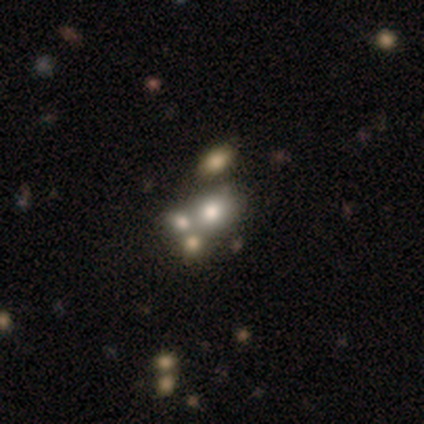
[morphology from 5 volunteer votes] Q: Smooth or featured?
A: featured or disk (40%); tied with: star or artifact (40%)
Q: Edge-on disk?
A: no (100%)
Q: Bar?
A: no (100%)
Q: Spiral arms?
A: no (100%)
Q: Bulge size?
A: dominant (50%); tied with: moderate (50%)
Q: Merging?
A: merger (67%); runner-up: none (33%)